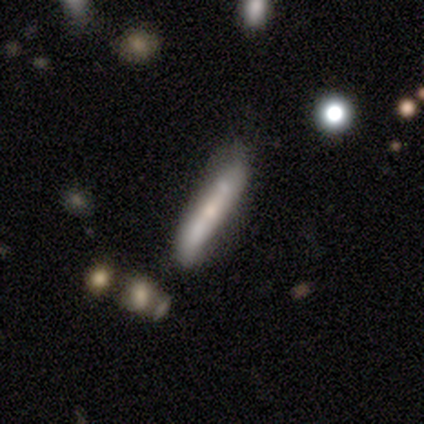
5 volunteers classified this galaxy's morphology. smooth_or_featured: smooth (p=0.60) [alt: featured or disk p=0.40]
how_rounded: cigar-shaped (p=1.00)
merging: none (p=1.00)